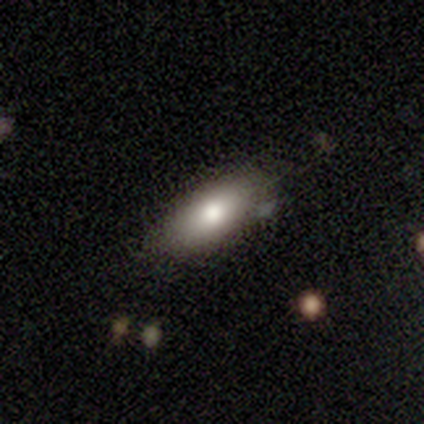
Volunteers were most divided on "merging": none: 60%, minor disturbance: 40%, major disturbance: 0%, merger: 0%. More confident: how rounded — in between (100%); smooth or featured — smooth (80%).